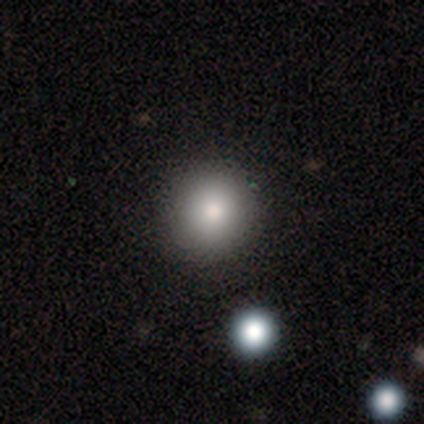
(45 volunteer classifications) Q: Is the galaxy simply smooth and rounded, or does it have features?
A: smooth — 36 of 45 (80%).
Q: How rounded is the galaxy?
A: round — 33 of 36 (92%).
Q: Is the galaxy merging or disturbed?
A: none — 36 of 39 (92%).